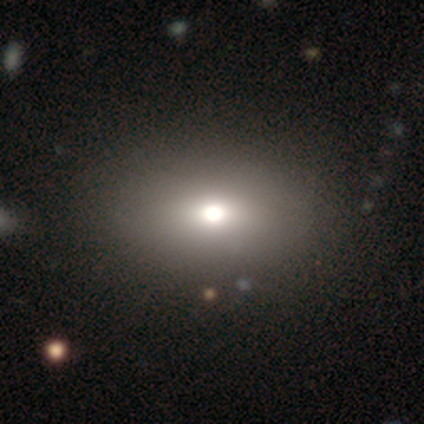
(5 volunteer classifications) Volunteers were most divided on "how rounded": in between: 75%, round: 25%, cigar-shaped: 0%. More confident: smooth or featured — smooth (80%); merging — none (80%).